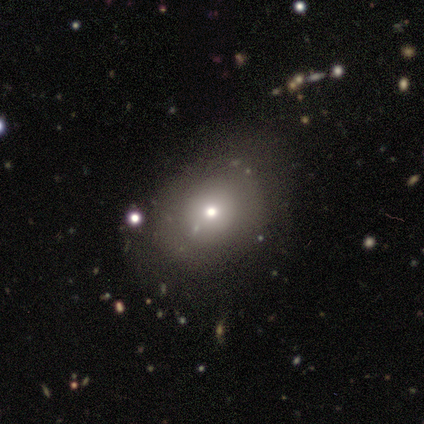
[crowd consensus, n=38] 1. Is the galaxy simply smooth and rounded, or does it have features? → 61% smooth, 26% featured or disk, 13% star or artifact.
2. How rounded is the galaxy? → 52% round, 43% in between, 4% cigar-shaped.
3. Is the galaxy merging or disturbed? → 52% none, 24% major disturbance, 21% minor disturbance, 3% merger.